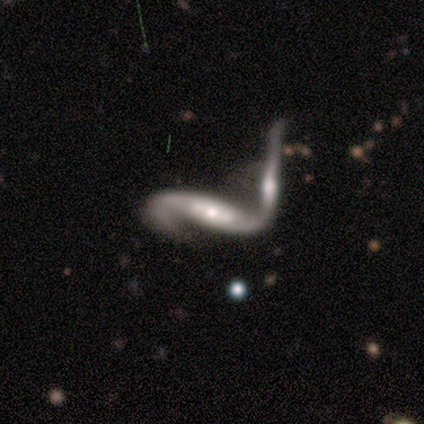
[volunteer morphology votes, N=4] type=featured or disk (100%); edge-on=no (75%); bar=no (67%); spiral arms=yes (100%); winding=loose (67%); arm count=2 (100%); bulge=moderate (33%, tied with small and none); merging=merger (100%).